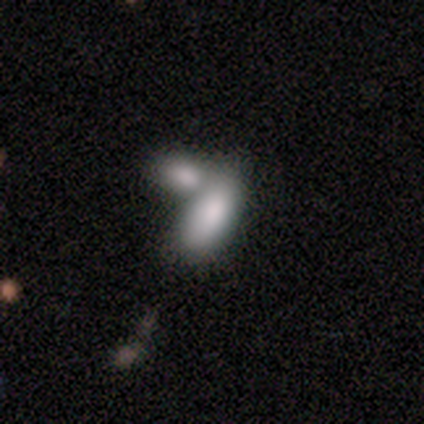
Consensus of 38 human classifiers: Smooth or featured? smooth (76%)
How rounded? in between (90%)
Merging? merger (71%)